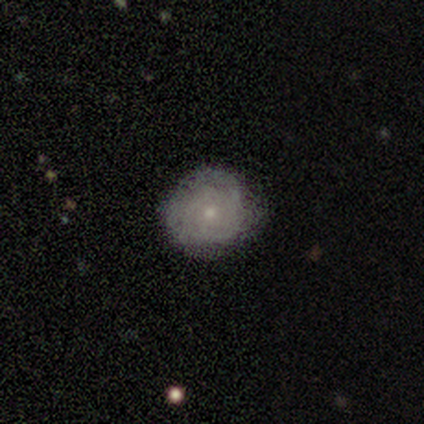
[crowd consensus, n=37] Q: Smooth or featured?
A: featured or disk (54%); runner-up: smooth (32%)
Q: Edge-on disk?
A: no (95%); runner-up: yes (5%)
Q: Bar?
A: no (89%); runner-up: weak (11%)
Q: Spiral arms?
A: yes (79%); runner-up: no (21%)
Q: Spiral winding?
A: tight (73%); runner-up: medium (13%)
Q: Spiral arm count?
A: can't tell (87%); runner-up: 2 (7%)
Q: Bulge size?
A: small (79%); runner-up: moderate (16%)
Q: Merging?
A: none (84%); runner-up: minor disturbance (12%)